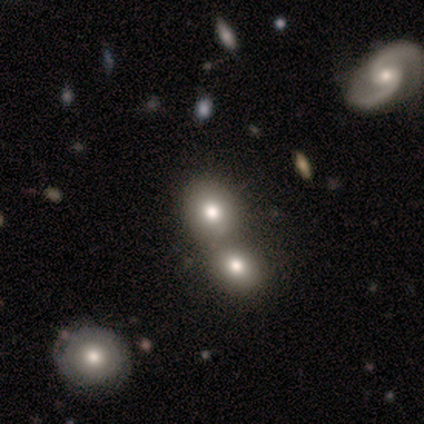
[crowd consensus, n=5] Morphology: type=smooth (100%); roundness=round (60%); merging=merger (80%).